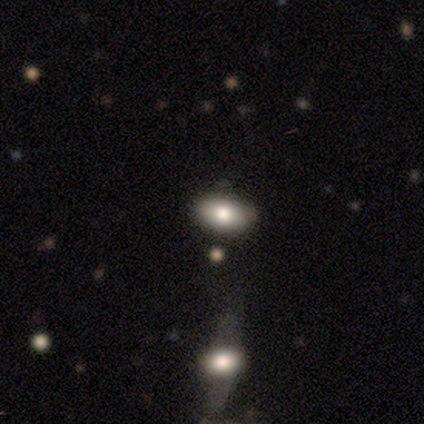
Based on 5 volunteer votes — Smooth or featured?
  - smooth: 60% *
  - featured or disk: 20%
  - star or artifact: 20%
How rounded?
  - in between: 100% *
  - round: 0%
  - cigar-shaped: 0%
Merging?
  - none: 75% *
  - merger: 25%
  - minor disturbance: 0%
  - major disturbance: 0%